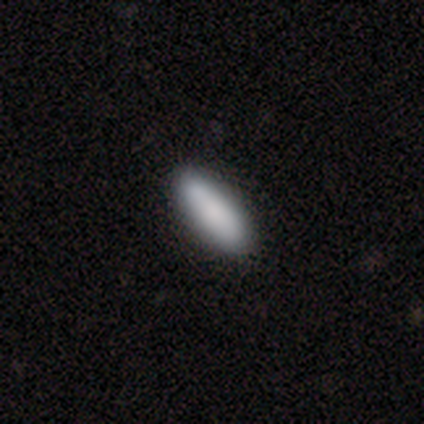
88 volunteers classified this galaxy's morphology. This is clearly a smooth galaxy (84%). How rounded: possibly in between (51%). Merging: clearly none (96%).